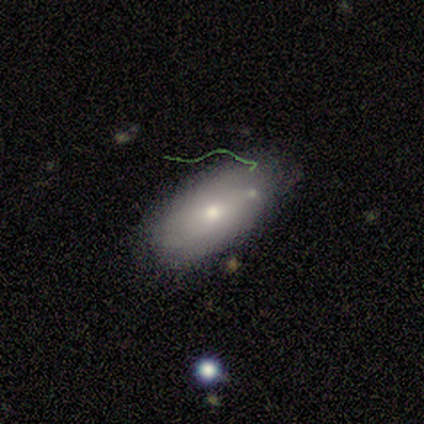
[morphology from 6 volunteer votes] This appears to be a smooth galaxy with no disk features (83%) that is in between round and cigar-shaped (100%). Merging: none (67%).